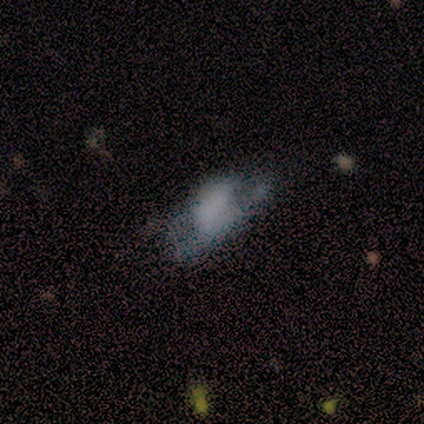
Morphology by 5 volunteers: smooth-or-featured: smooth: 100% | featured or disk: 0% | star or artifact: 0%
  how-rounded: in between: 100% | round: 0% | cigar-shaped: 0%
  merging: minor disturbance: 60% | major disturbance: 20% | merger: 20% | none: 0%